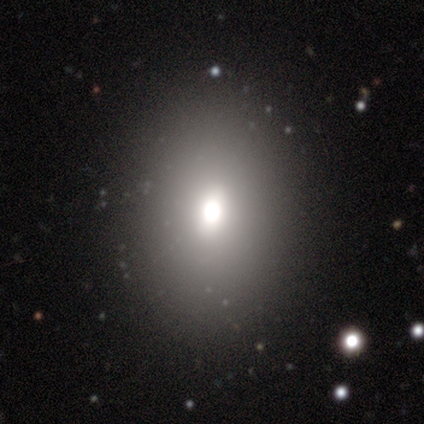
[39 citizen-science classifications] This is possibly a smooth galaxy (49%). How rounded: likely in between (79%). Merging: clearly none (89%).